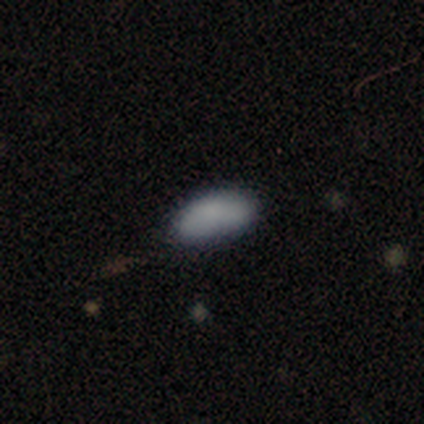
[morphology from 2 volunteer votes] type=smooth (100%); roundness=in between (100%); merging=none (50%, tied with minor disturbance).